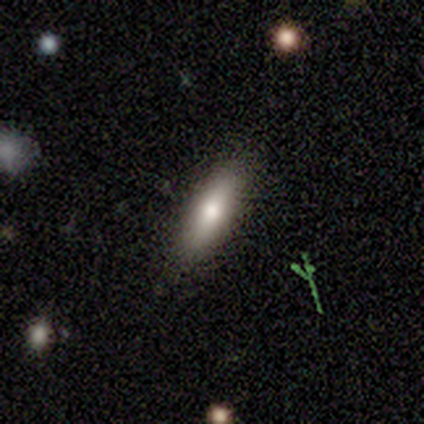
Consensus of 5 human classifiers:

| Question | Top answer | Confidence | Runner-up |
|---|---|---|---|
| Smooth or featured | smooth | 80% | featured or disk (20%) |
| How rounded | cigar-shaped | 75% | in between (25%) |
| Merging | none | 60% | minor disturbance (40%) |